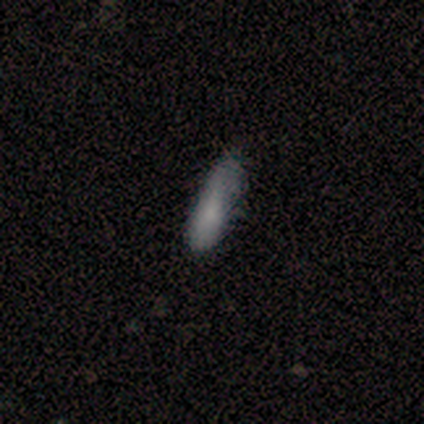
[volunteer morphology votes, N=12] Smooth or featured: smooth — 92% (star or artifact — 8%)
How rounded: in between — 64% (cigar-shaped — 36%)
Merging: minor disturbance — 55% (none — 36%)